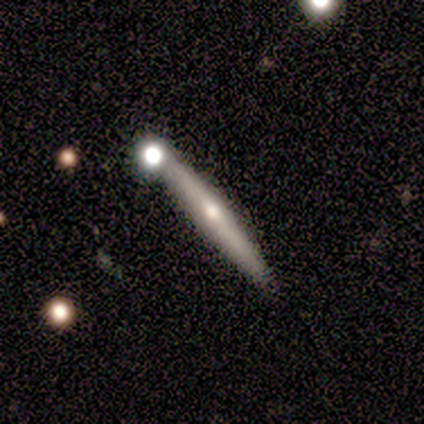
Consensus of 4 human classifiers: Morphology: type=smooth (50%); roundness=cigar-shaped (100%); merging=none (67%).